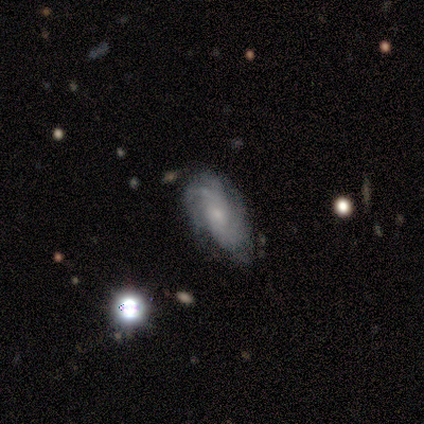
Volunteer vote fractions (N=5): This appears to be a featured or disk galaxy (80%) with a weak bar (50%, tied with no), tight (50%) spiral arms (100%) and a small central bulge (50%, tied with none). Merging: none (60%).